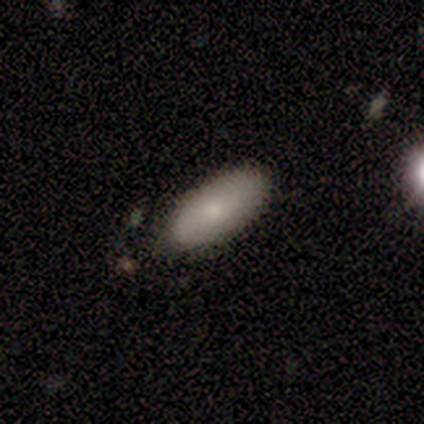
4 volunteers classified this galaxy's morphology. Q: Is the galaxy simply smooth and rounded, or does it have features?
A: smooth — 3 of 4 (75%).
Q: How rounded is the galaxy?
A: in between — 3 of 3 (100%).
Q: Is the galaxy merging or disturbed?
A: none — 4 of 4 (100%).